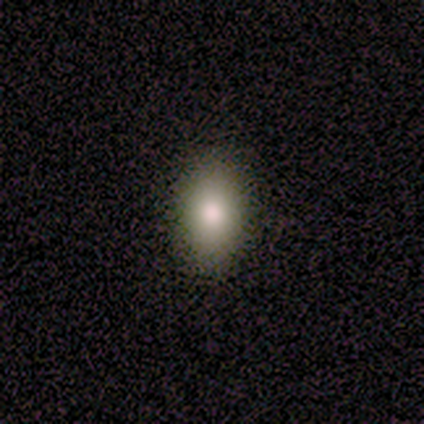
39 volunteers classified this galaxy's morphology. Volunteers were most divided on "merging": none: 78%, minor disturbance: 19%, merger: 3%, major disturbance: 0%. More confident: how rounded — in between (94%); smooth or featured — smooth (90%).